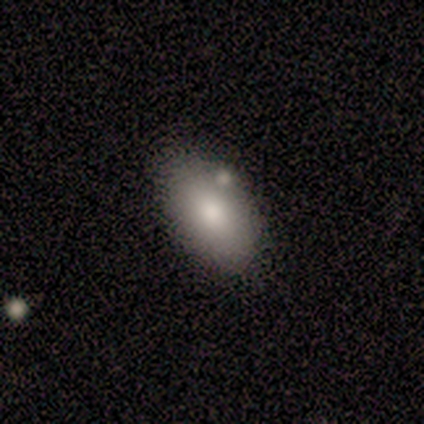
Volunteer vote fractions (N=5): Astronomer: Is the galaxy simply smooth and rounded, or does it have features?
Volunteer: smooth — 60% (runner-up: featured or disk, 40%).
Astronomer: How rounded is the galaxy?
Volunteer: in between — 100%.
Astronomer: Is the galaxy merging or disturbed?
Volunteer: none — 40% (runner-up: minor disturbance, 20%).